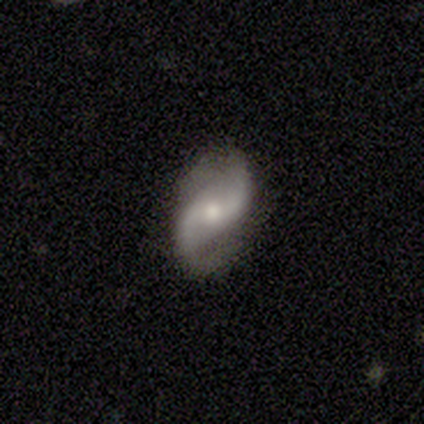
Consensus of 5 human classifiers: A featured or disk galaxy (100%) with a weak bar (80%), 2 (100%) loose (60%) spiral arms (100%) and a moderate central bulge (80%). Merging: none (100%).